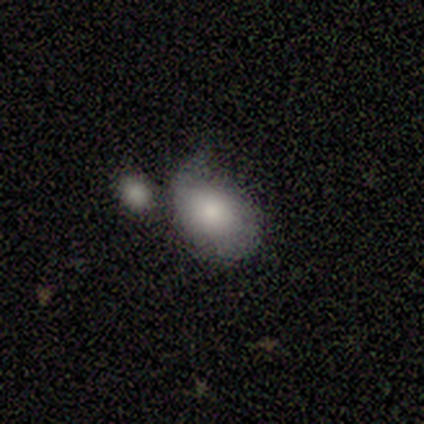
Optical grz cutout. It shows a smooth galaxy with no disk features (80%) that is in between round and cigar-shaped (75%). Merging: major disturbance (60%).